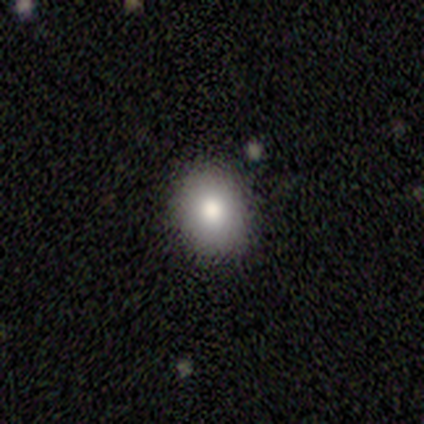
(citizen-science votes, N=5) smooth-or-featured: smooth: 60% | featured or disk: 20% | star or artifact: 20%
  how-rounded: in between: 100% | round: 0% | cigar-shaped: 0%
  merging: none: 100% | minor disturbance: 0% | major disturbance: 0% | merger: 0%